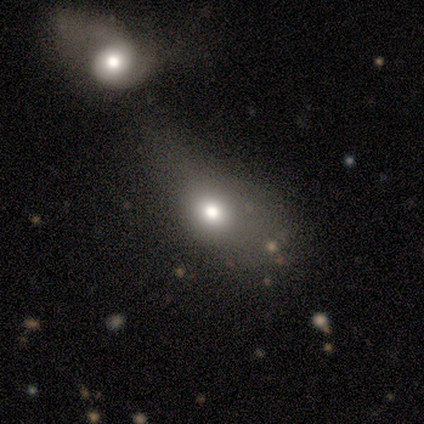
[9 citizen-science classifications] Morphology: type=smooth (89%); roundness=in between (88%); merging=major disturbance (44%).